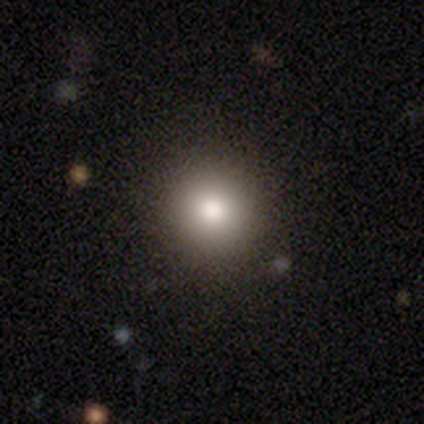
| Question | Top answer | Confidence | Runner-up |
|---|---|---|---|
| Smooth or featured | smooth | 100% | — |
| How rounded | round | 100% | — |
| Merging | none | 100% | — |